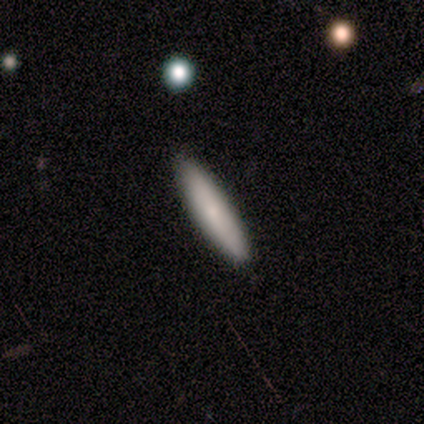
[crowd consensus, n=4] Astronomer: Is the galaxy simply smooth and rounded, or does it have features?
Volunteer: featured or disk — 75%.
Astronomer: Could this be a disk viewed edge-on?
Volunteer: yes — 100%.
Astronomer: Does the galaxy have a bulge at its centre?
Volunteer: none — 67%.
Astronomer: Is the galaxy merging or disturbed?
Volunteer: none — 100%.